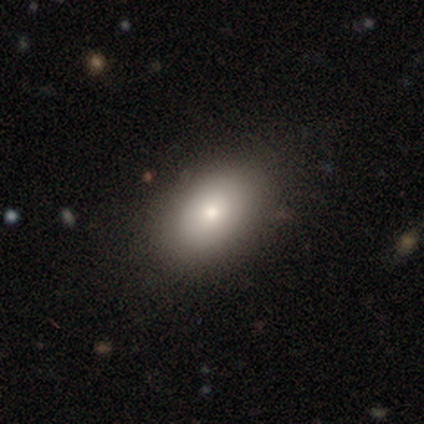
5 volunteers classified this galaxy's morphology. Q: Smooth or featured?
A: smooth (80%); runner-up: featured or disk (20%)
Q: How rounded?
A: in between (100%)
Q: Merging?
A: none (100%)